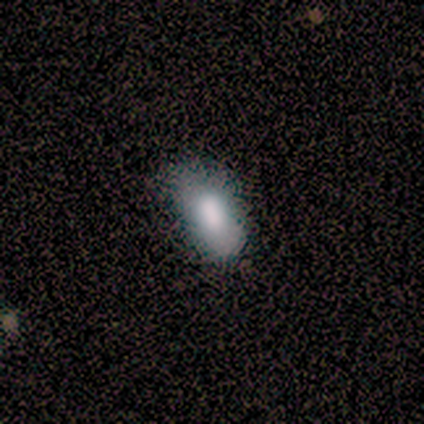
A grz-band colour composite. It shows a featured or disk galaxy (60%) with no bar (67%), no spiral arms (100%) and a moderate central bulge (67%). Merging: minor disturbance (60%).